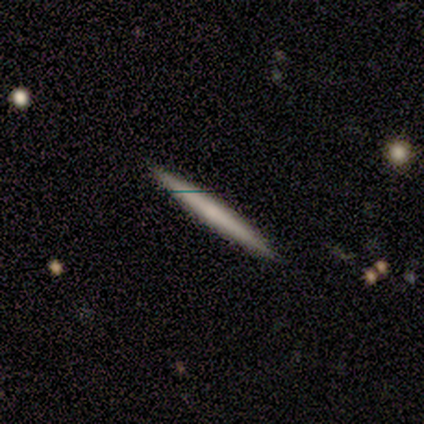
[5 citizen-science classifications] Morphology: type=smooth (60%); roundness=cigar-shaped (100%); merging=none (100%).